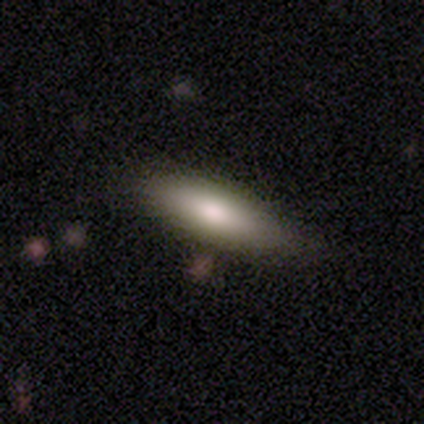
This appears to be a smooth galaxy with no disk features (78%) that is cigar-shaped (52%). Merging: none (73%).